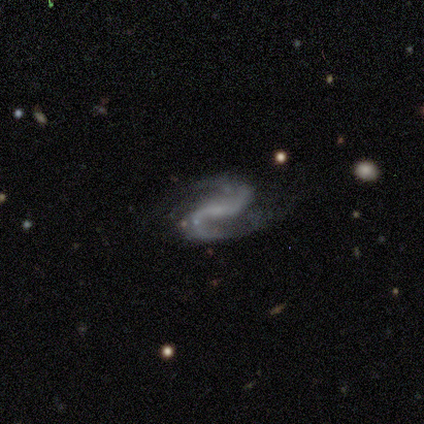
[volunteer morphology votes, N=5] Smooth or featured? 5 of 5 (100%) said featured or disk. Edge-on disk? 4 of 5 (80%) said no. Bar? 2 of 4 (50%) said no. Spiral arms? 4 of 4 (100%) said yes. Spiral winding? 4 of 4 (100%) said medium. Spiral arm count? 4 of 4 (100%) said 2. Bulge size? 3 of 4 (75%) said small. Merging? 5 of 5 (100%) said none.